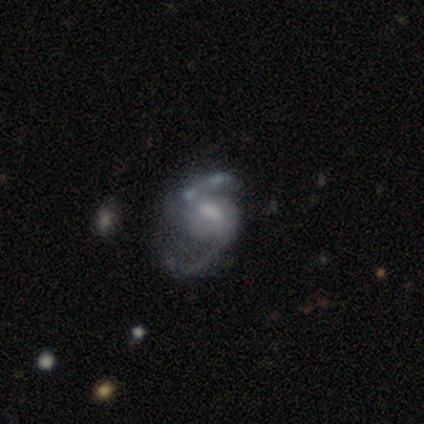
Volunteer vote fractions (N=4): Smooth or featured? 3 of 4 (75%) said featured or disk. Edge-on disk? 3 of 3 (100%) said no. Bar? 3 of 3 (100%) said weak. Spiral arms? 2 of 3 (67%) said yes. Spiral winding? 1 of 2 (50%, tied with loose) said medium. Spiral arm count? 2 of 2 (100%) said 2. Bulge size? 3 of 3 (100%) said small. Merging? 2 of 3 (67%) said minor disturbance.